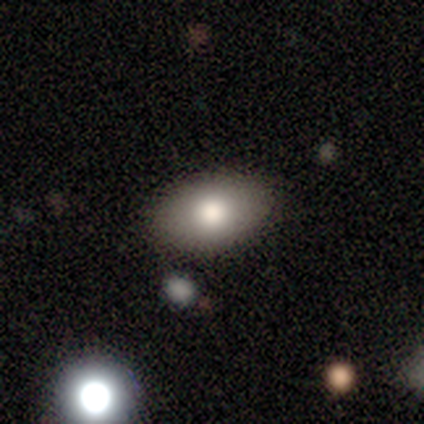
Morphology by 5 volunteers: Smooth or featured? 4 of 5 (80%) said smooth. How rounded? 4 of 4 (100%) said in between. Merging? 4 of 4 (100%) said none.